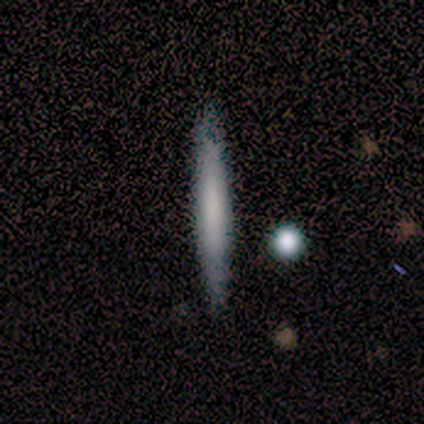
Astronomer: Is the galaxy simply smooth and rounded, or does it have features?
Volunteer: smooth — 100%.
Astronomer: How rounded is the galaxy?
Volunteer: cigar-shaped — 100%.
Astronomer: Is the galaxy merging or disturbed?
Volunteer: none — 100%.